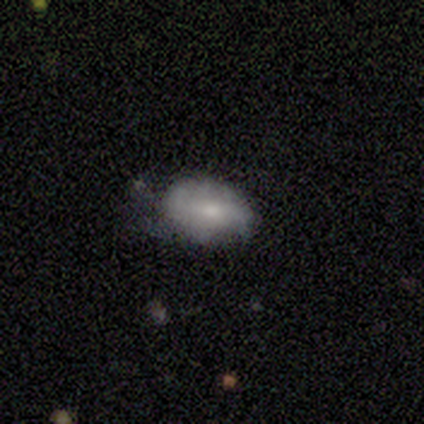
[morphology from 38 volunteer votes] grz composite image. It shows a smooth galaxy with no disk features (66%) that is in between round and cigar-shaped (92%). Merging: minor disturbance (39%).